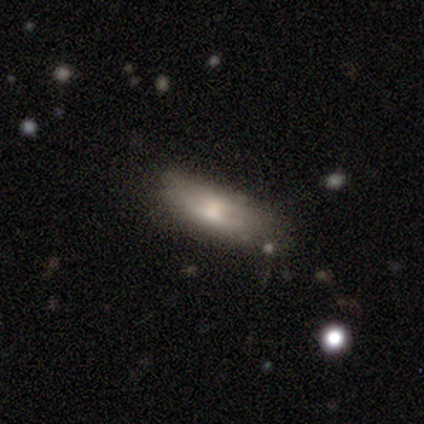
Volunteers were most divided on "smooth or featured": smooth: 56%, featured or disk: 44%, star or artifact: 0%. More confident: how rounded — in between (80%); merging — none (67%).